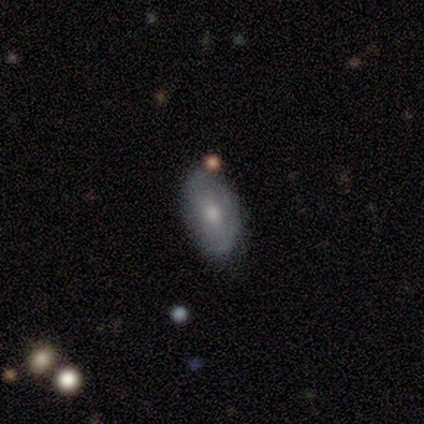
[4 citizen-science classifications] Volunteers were most divided on "smooth or featured" (2-way tie): smooth: 50%, featured or disk: 50%, star or artifact: 0%. More confident: how rounded — in between (100%); merging — none (75%).